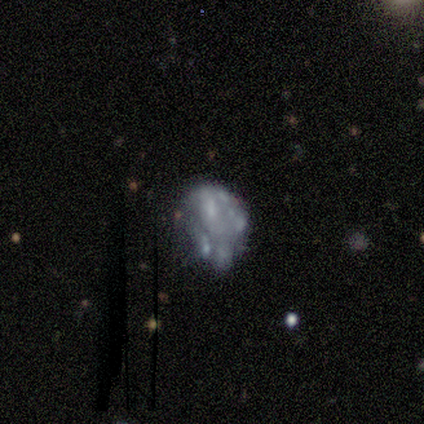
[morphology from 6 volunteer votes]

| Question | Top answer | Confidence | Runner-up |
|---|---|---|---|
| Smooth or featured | featured or disk | 67% | smooth (17%) |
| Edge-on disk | no | 100% | — |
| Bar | no | 100% | — |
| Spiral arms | no | 100% | — |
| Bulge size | none | 75% | small (25%) |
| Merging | none | 40% | tied: minor disturbance (40%) |